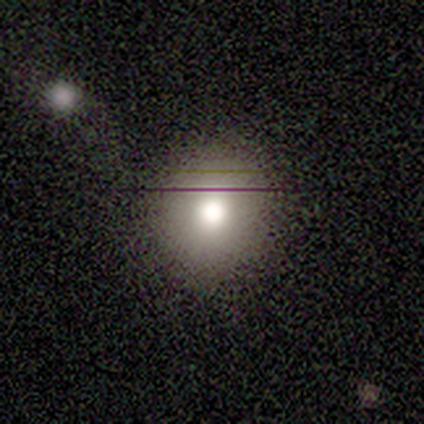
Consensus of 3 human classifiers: smooth 67%, star or artifact 33%, featured or disk 0%. Down the decision tree: how rounded — round (100%); merging — none (100%).